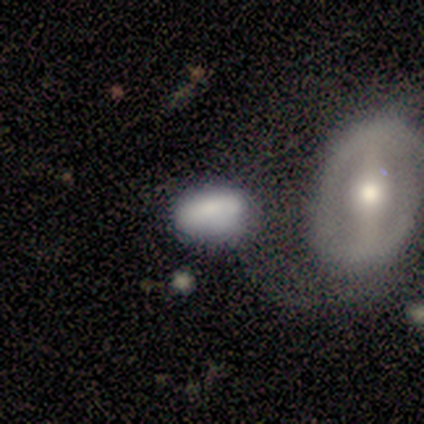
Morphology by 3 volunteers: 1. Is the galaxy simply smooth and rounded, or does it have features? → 67% smooth, 33% featured or disk, 0% star or artifact.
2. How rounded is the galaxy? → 50% round (tied), 50% in between (tied), 0% cigar-shaped.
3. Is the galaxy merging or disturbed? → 33% minor disturbance (tied), 33% major disturbance (tied), 33% merger (tied), 0% none.